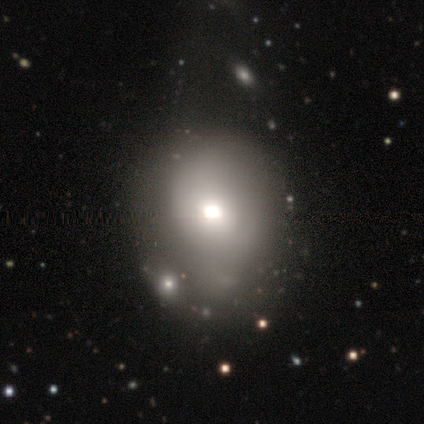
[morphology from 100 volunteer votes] This appears to be a smooth galaxy with no disk features (56%) that is round (66%). Merging: none (43%).